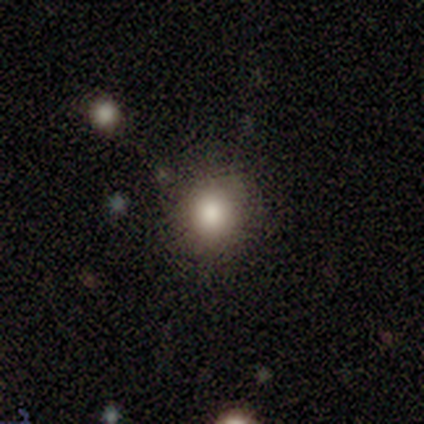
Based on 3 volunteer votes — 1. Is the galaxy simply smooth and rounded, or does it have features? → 100% smooth, 0% featured or disk, 0% star or artifact.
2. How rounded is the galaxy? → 67% round, 33% in between, 0% cigar-shaped.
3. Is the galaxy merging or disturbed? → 67% none, 33% minor disturbance, 0% major disturbance, 0% merger.